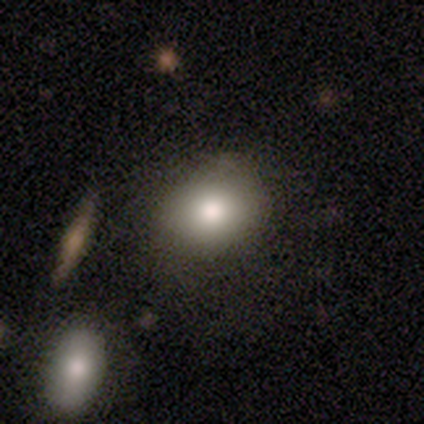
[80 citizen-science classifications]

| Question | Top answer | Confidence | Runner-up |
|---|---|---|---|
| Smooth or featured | smooth | 90% | featured or disk (8%) |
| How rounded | in between | 56% | round (44%) |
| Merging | none | 76% | minor disturbance (13%) |